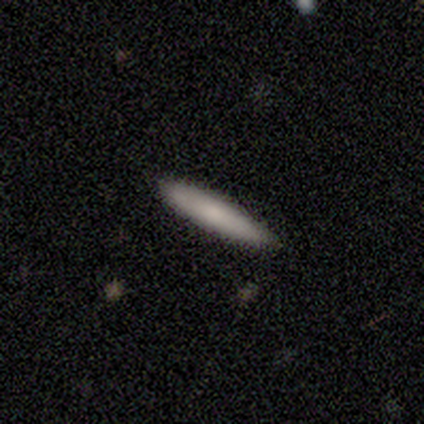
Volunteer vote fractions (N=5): This appears to be a smooth galaxy with no disk features (80%) that is cigar-shaped (100%). Merging: none (100%).